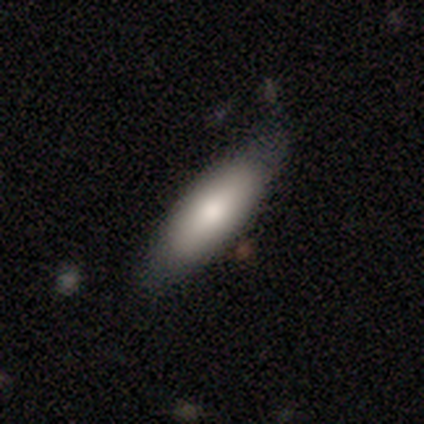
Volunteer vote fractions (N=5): Smooth or featured? 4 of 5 (80%) said smooth. How rounded? 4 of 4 (100%) said in between. Merging? 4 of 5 (80%) said none.